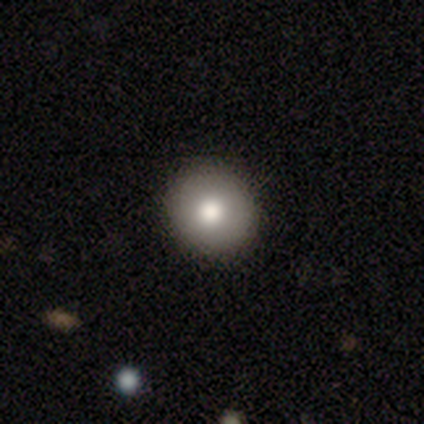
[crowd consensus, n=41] Smooth or featured? 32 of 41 (78%) said smooth. How rounded? 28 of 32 (88%) said round. Merging? 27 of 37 (73%) said none.